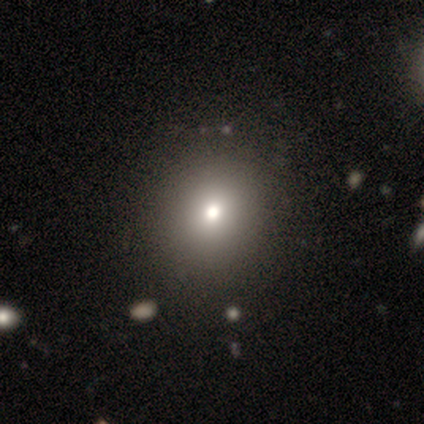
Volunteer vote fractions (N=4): A smooth galaxy with no disk features (75%) that is round (100%). Merging: none (67%).